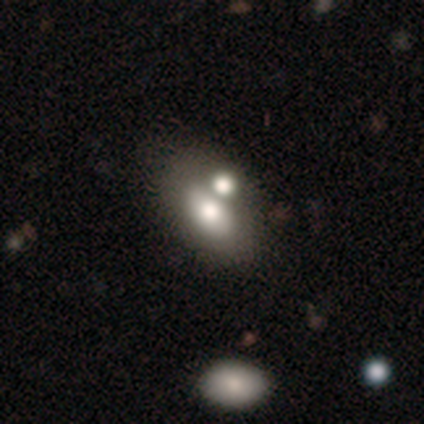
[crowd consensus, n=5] Smooth or featured?
  - featured or disk: 60% *
  - smooth: 20%
  - star or artifact: 20%
Edge-on disk?
  - no: 100% *
  - yes: 0%
Bar?
  - no: 100% *
  - strong: 0%
  - weak: 0%
Spiral arms?
  - no: 100% *
  - yes: 0%
Bulge size?
  - large: 100% *
  - dominant: 0%
  - moderate: 0%
  - small: 0%
  - none: 0%
Merging?
  - merger: 50% *
  - none: 25%
  - major disturbance: 25%
  - minor disturbance: 0%